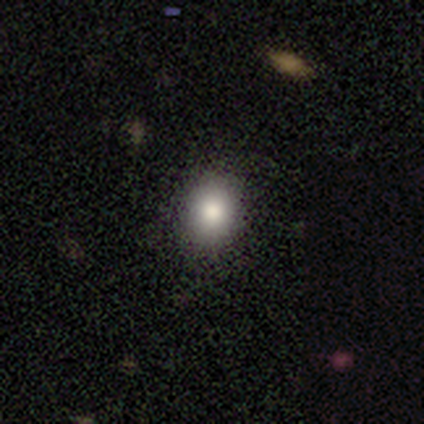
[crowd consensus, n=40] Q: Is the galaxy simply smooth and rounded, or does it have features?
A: smooth — 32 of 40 (80%).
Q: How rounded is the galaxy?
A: round — 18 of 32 (56%).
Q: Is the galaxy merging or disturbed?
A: none — 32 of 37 (86%).